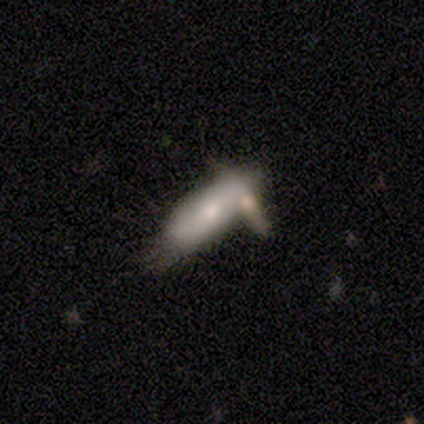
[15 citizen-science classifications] Overall: smooth (47%, tied with featured or disk). How rounded: in between (100%). Merging: none (50%; minor disturbance 21%).